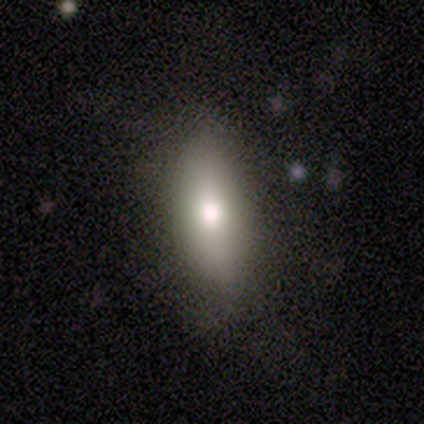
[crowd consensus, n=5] Q: Smooth or featured?
A: smooth (80%); runner-up: featured or disk (20%)
Q: How rounded?
A: in between (50%); tied with: cigar-shaped (50%)
Q: Merging?
A: none (100%)